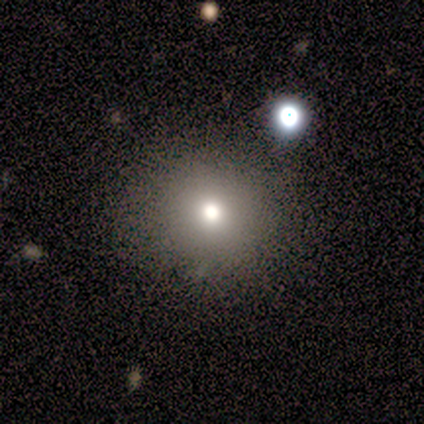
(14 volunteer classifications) Smooth or featured? 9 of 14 (64%) said smooth. How rounded? 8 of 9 (89%) said round. Merging? 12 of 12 (100%) said none.